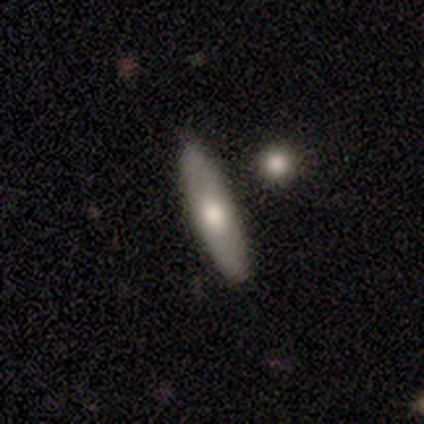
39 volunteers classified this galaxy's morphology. type=smooth (69%); roundness=cigar-shaped (70%); merging=none (74%).